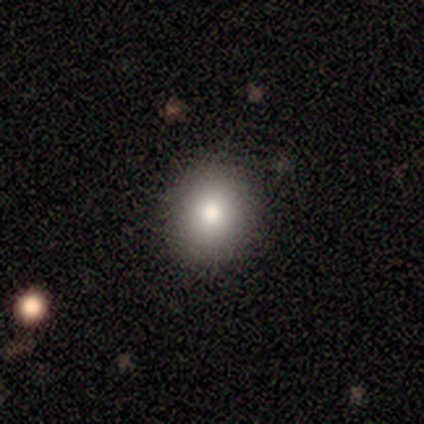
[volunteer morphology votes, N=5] Smooth or featured: smooth — 60% (star or artifact — 40%)
How rounded: in between — 100%
Merging: none — 100%